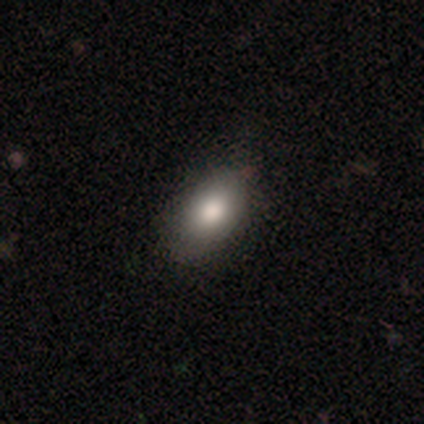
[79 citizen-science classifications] This is clearly a smooth galaxy (86%). How rounded: clearly in between (97%). Merging: marginally none (45%).